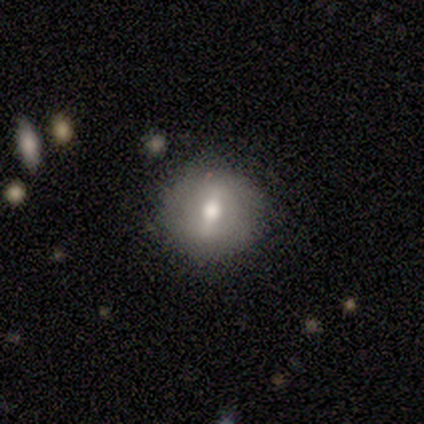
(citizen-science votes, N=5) smooth_or_featured: smooth (p=0.60) [alt: featured or disk p=0.40]
how_rounded: round (p=1.00)
merging: none (p=1.00)